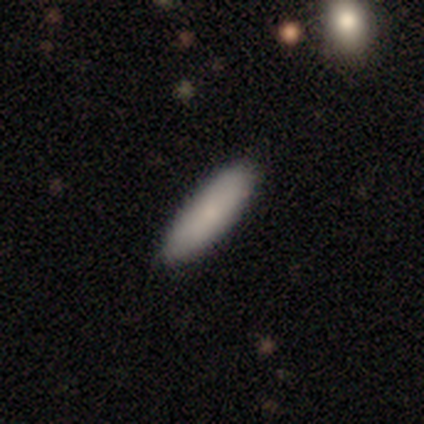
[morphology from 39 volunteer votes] A smooth galaxy with no disk features (92%) that is cigar-shaped (61%).

Vote fractions:
- Smooth or featured? smooth: 92% / star or artifact: 5% / featured or disk: 3%
- How rounded? cigar-shaped: 61% / in between: 39% / round: 0%
- Merging? none: 89% / minor disturbance: 11% / major disturbance: 0% / merger: 0%